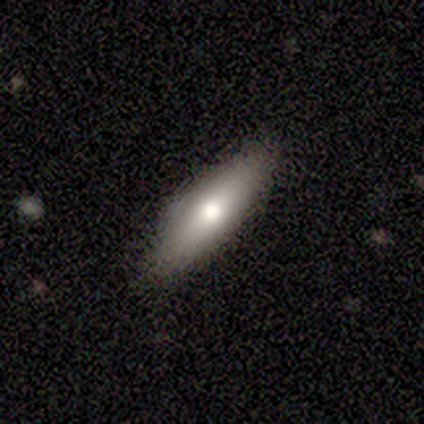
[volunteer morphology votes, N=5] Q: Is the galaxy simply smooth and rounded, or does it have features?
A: smooth — 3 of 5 (60%).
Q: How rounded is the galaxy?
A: cigar-shaped — 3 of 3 (100%).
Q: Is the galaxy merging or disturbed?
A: none — 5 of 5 (100%).